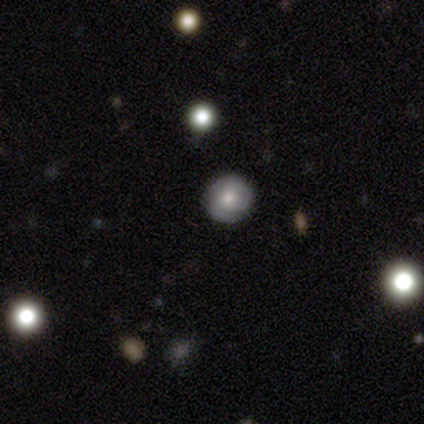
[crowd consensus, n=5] smooth 40% (tied), star or artifact 40% (tied), featured or disk 20%. Down the decision tree: how rounded — round (100%); merging — none (100%).